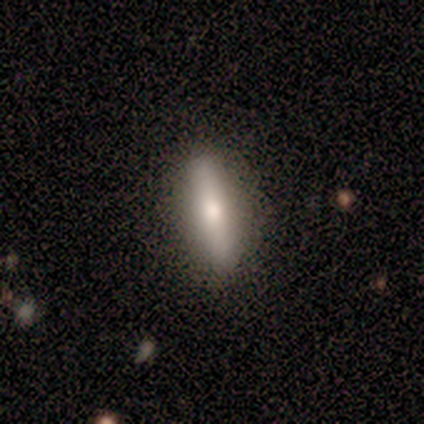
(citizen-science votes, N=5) Smooth or featured: smooth — 100%
How rounded: cigar-shaped — 80% (in between — 20%)
Merging: none — 100%